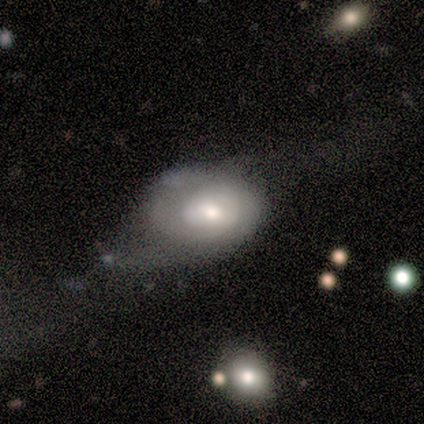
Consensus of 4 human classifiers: This is likely a smooth galaxy (75%). How rounded: likely in between (67%). Merging: possibly major disturbance (50%).